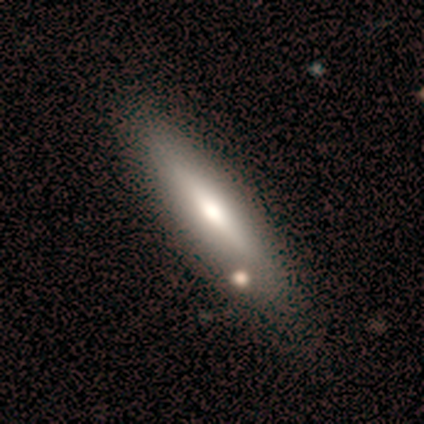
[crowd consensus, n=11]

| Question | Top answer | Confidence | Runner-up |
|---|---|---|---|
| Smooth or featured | featured or disk | 55% | smooth (36%) |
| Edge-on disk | yes | 83% | no (17%) |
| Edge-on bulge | rounded | 80% | boxy (20%) |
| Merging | none | 70% | minor disturbance (30%) |